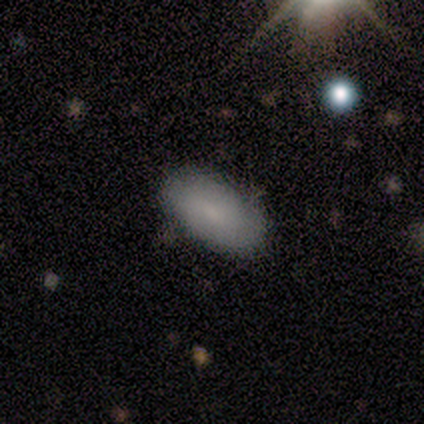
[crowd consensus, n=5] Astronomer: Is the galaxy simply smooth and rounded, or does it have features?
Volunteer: smooth — 100%.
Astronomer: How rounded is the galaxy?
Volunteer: in between — 100%.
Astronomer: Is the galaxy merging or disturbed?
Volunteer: none — 100%.